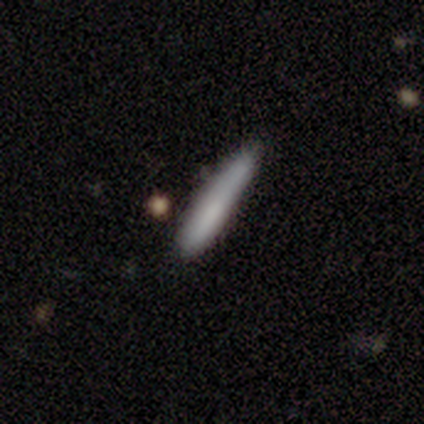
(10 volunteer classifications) Smooth or featured? 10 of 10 (100%) said smooth. How rounded? 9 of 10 (90%) said cigar-shaped. Merging? 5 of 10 (50%) said minor disturbance.